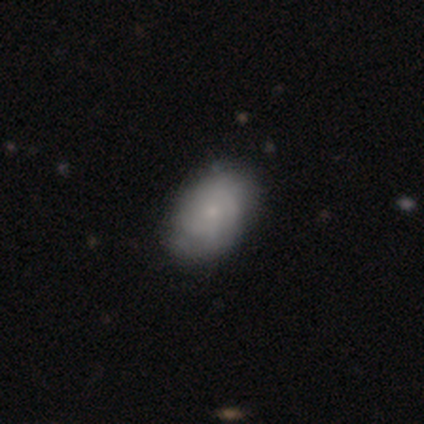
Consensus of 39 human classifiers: This appears to be a smooth galaxy with no disk features (59%) that is in between round and cigar-shaped (96%). Merging: none (49%).